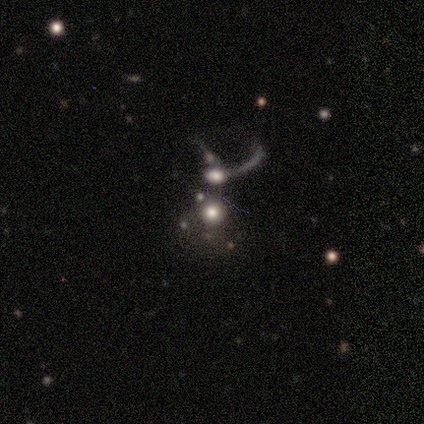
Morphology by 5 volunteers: type=smooth (40%, tied with featured or disk); roundness=round (100%); merging=merger (50%).